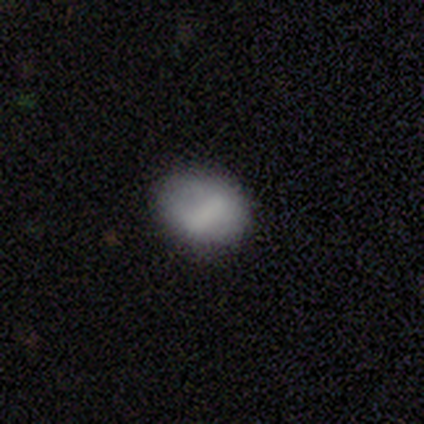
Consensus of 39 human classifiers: A smooth galaxy with no disk features (85%) that is in between round and cigar-shaped (64%).

Vote fractions:
- Smooth or featured? smooth: 85% / featured or disk: 13% / star or artifact: 3%
- How rounded? in between: 64% / round: 36% / cigar-shaped: 0%
- Merging? none: 84% / minor disturbance: 13% / major disturbance: 3% / merger: 0%